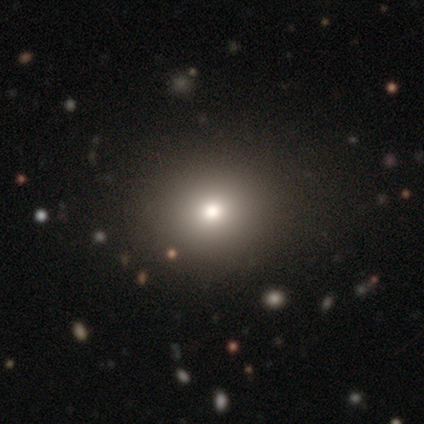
Smooth or featured?
  - smooth: 60% *
  - star or artifact: 40%
  - featured or disk: 0%
How rounded?
  - round: 67% *
  - in between: 33%
  - cigar-shaped: 0%
Merging?
  - none: 100% *
  - minor disturbance: 0%
  - major disturbance: 0%
  - merger: 0%